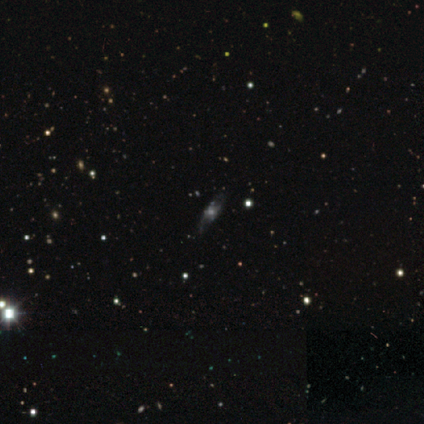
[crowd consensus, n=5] smooth_or_featured: smooth (p=0.60) [alt: featured or disk p=0.20]
how_rounded: in between (p=0.67) [alt: cigar-shaped p=0.33]
merging: none (p=1.00)